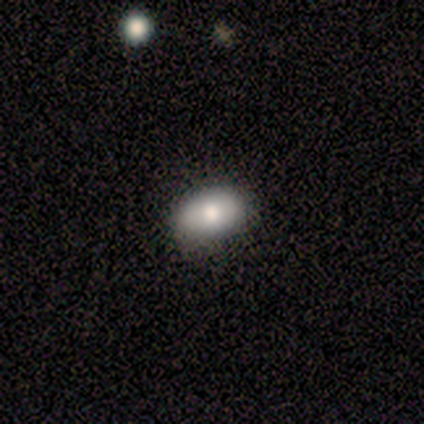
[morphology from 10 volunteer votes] smooth 60%, featured or disk 40%, star or artifact 0%. Down the decision tree: how rounded — in between (100%); merging — none (80%).